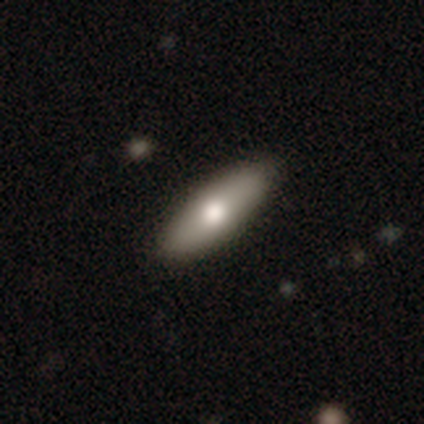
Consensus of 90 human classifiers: Smooth or featured?
  - smooth: 72% *
  - featured or disk: 24%
  - star or artifact: 3%
How rounded?
  - in between: 52% *
  - cigar-shaped: 46%
  - round: 2%
Merging?
  - none: 89% *
  - minor disturbance: 7%
  - major disturbance: 3%
  - merger: 1%